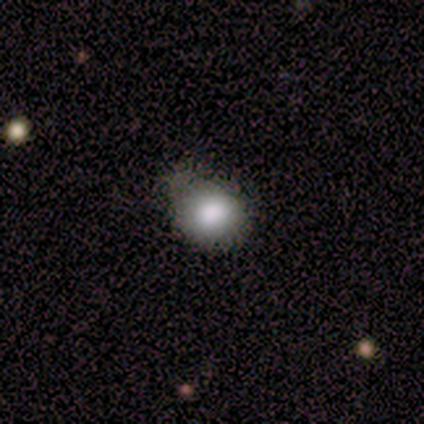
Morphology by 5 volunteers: Volunteers were most divided on "how rounded": round: 75%, in between: 25%, cigar-shaped: 0%. More confident: merging — none (100%); smooth or featured — smooth (80%).